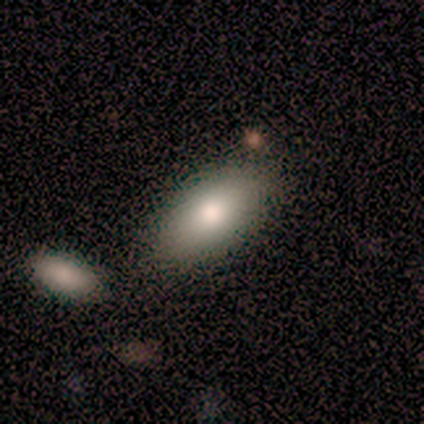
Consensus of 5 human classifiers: A smooth galaxy with no disk features (60%) that is in between round and cigar-shaped (100%).

Vote fractions:
- Smooth or featured? smooth: 60% / featured or disk: 40% / star or artifact: 0%
- How rounded? in between: 100% / round: 0% / cigar-shaped: 0%
- Merging? none: 80% / minor disturbance: 20% / major disturbance: 0% / merger: 0%